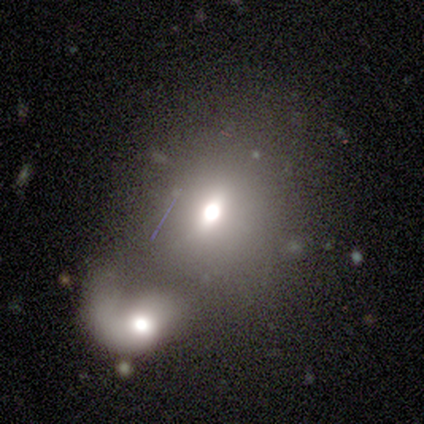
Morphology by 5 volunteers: A smooth galaxy with no disk features (60%) that is round (67%).

Vote fractions:
- Smooth or featured? smooth: 60% / featured or disk: 20% / star or artifact: 20%
- How rounded? round: 67% / in between: 33% / cigar-shaped: 0%
- Merging? merger: 100% / none: 0% / minor disturbance: 0% / major disturbance: 0%